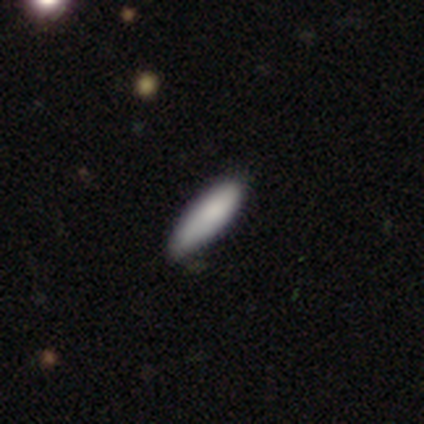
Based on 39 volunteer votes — A smooth galaxy with no disk features (92%) that is cigar-shaped (53%). Merging: none (31%).